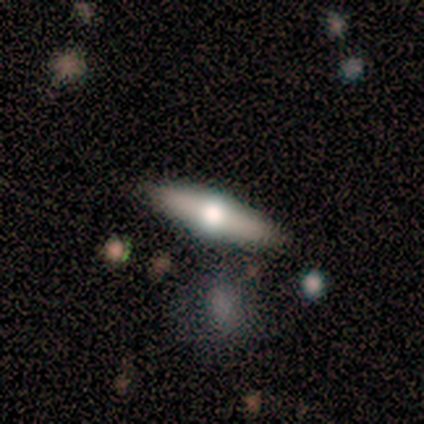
Overall: featured or disk (60%; smooth 40%). Edge-on disk: yes (100%). Edge-on bulge: rounded (100%). Merging: none (100%).